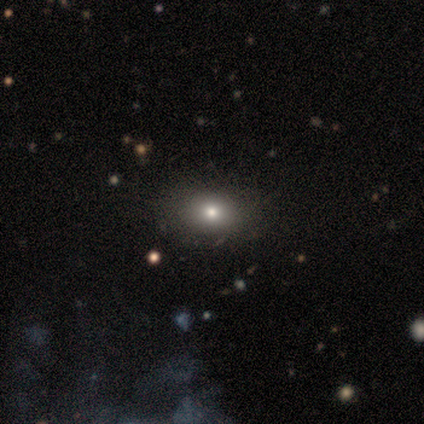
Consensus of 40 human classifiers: This is clearly a smooth galaxy (80%). How rounded: possibly in between (50%). Merging: possibly none (59%).